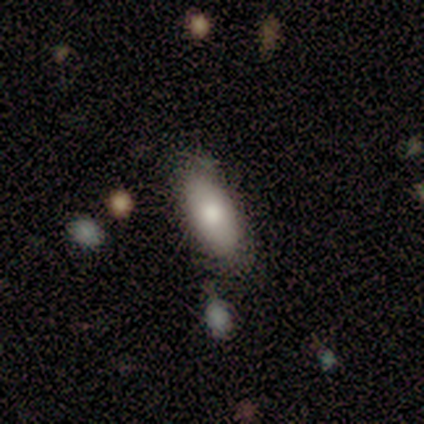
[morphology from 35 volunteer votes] Q: Smooth or featured?
A: smooth (86%); runner-up: star or artifact (9%)
Q: How rounded?
A: in between (90%); runner-up: cigar-shaped (10%)
Q: Merging?
A: none (66%); runner-up: minor disturbance (31%)